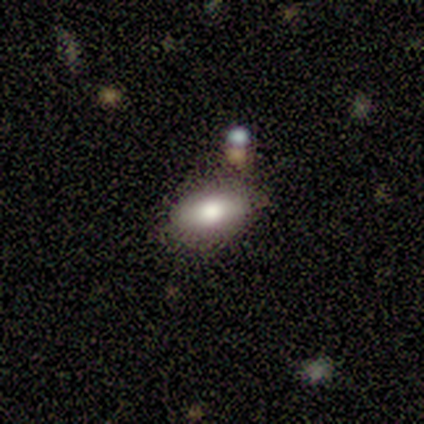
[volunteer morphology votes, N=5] This is clearly a smooth galaxy (100%). How rounded: clearly in between (100%). Merging: clearly none (100%).